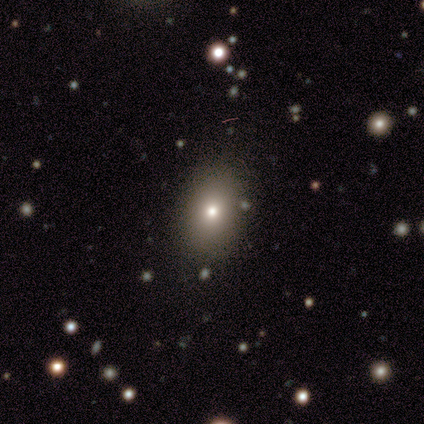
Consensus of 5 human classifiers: smooth-or-featured: featured or disk: 60% | smooth: 20% | star or artifact: 20%
  disk-edge-on: no: 100% | yes: 0%
    bar: no: 100% | strong: 0% | weak: 0%
    has-spiral-arms: no: 100% | yes: 0%
    bulge-size: small: 67% | moderate: 33% | dominant: 0% | large: 0% | none: 0%
  merging: none: 100% | minor disturbance: 0% | major disturbance: 0% | merger: 0%